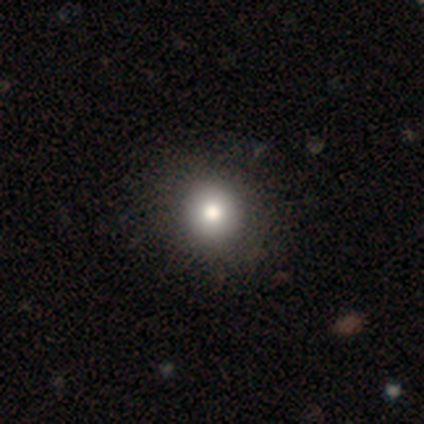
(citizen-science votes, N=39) A smooth galaxy with no disk features (79%) that is round (90%). Merging: none (65%).